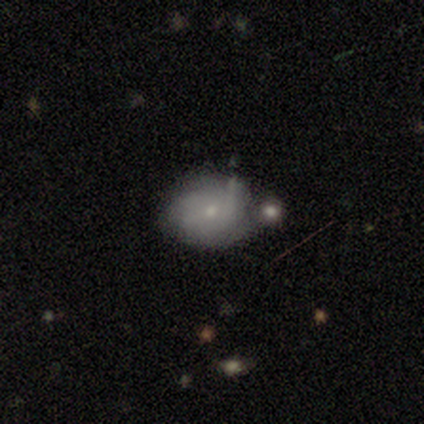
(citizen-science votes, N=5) smooth_or_featured: smooth (p=0.60) [alt: featured or disk p=0.20]
how_rounded: round (p=0.33) [tied with: in between p=0.33, cigar-shaped p=0.33]
merging: none (p=0.50) [alt: minor disturbance p=0.25]